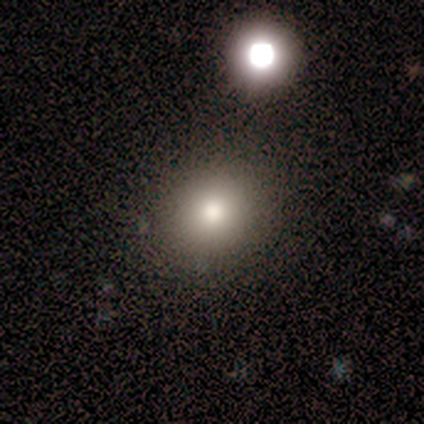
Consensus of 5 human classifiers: Smooth or featured?
  - smooth: 100% *
  - featured or disk: 0%
  - star or artifact: 0%
How rounded?
  - round: 80% *
  - in between: 20%
  - cigar-shaped: 0%
Merging?
  - none: 60% *
  - minor disturbance: 20%
  - major disturbance: 20%
  - merger: 0%